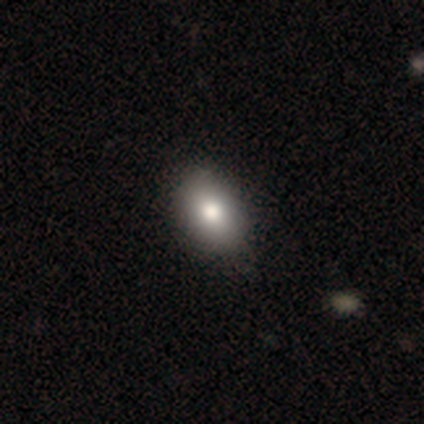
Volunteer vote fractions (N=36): This appears to be a smooth galaxy with no disk features (64%) that is in between round and cigar-shaped (74%). Merging: none (70%).